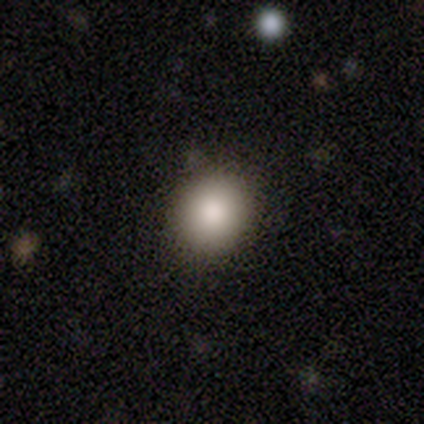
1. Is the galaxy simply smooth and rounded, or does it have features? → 100% smooth, 0% featured or disk, 0% star or artifact.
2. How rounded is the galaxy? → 100% round, 0% in between, 0% cigar-shaped.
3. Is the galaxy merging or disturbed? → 80% none, 20% minor disturbance, 0% major disturbance, 0% merger.